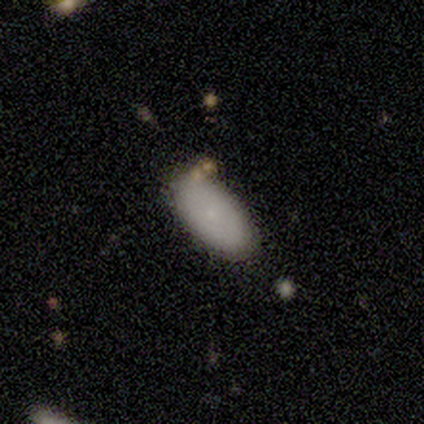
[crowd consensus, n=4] A smooth galaxy with no disk features (75%) that is in between round and cigar-shaped (100%). Merging: none (100%).